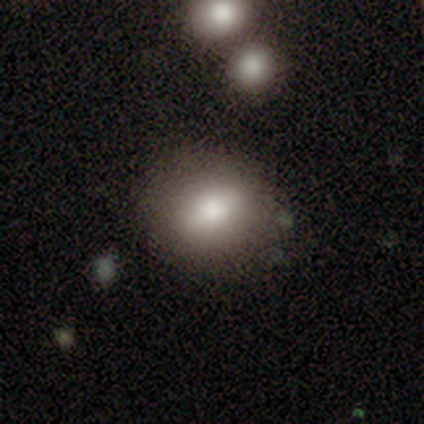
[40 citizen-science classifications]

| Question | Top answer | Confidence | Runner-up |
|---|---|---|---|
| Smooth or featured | smooth | 80% | featured or disk (10%) |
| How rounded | round | 66% | in between (34%) |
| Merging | none | 83% | minor disturbance (11%) |